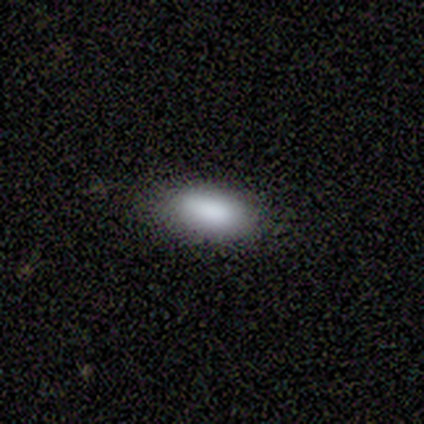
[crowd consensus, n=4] A smooth galaxy with no disk features (100%) that is in between round and cigar-shaped (100%).

Vote fractions:
- Smooth or featured? smooth: 100% / featured or disk: 0% / star or artifact: 0%
- How rounded? in between: 100% / round: 0% / cigar-shaped: 0%
- Merging? none: 75% / minor disturbance: 25% / major disturbance: 0% / merger: 0%